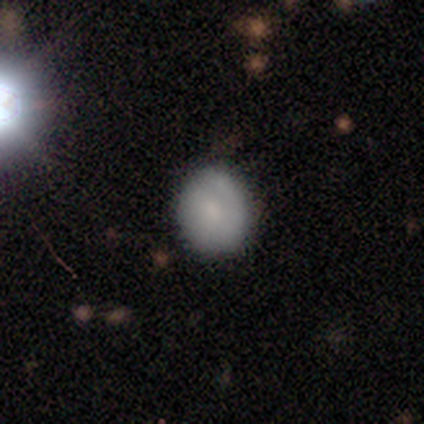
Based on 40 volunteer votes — This is clearly a smooth galaxy (82%). How rounded: likely round (70%). Merging: clearly none (83%).